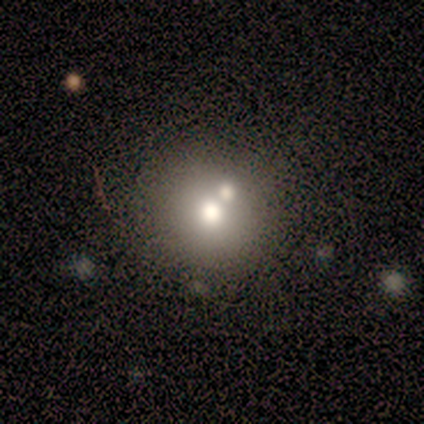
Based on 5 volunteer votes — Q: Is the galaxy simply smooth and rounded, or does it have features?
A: smooth — 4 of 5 (80%).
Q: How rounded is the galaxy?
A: round — 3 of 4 (75%).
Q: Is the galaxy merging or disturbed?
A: merger — 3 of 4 (75%).